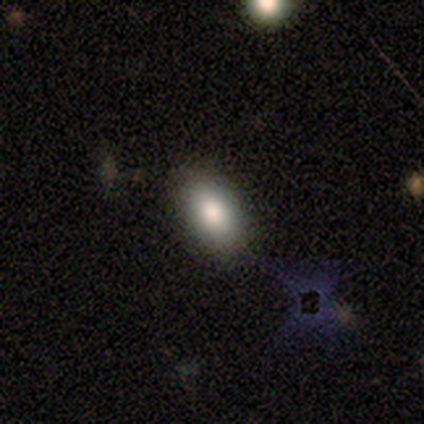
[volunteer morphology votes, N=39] smooth 77%, featured or disk 13%, star or artifact 10%. Down the decision tree: how rounded — in between (90%); merging — none (91%).